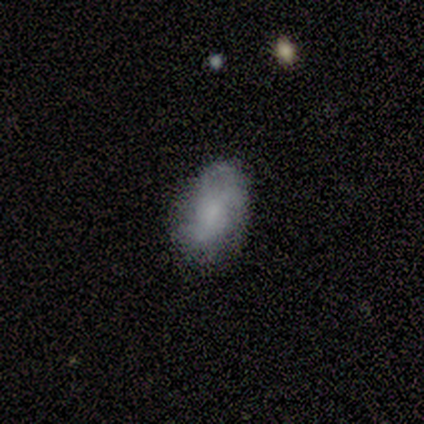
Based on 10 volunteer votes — Smooth or featured: smooth — 50% (tied with featured or disk — 50%)
How rounded: in between — 100%
Merging: none — 80% (minor disturbance — 10%)